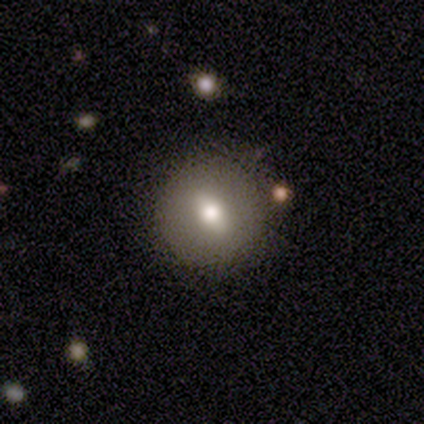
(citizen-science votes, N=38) A smooth galaxy with no disk features (71%) that is round (78%).

Vote fractions:
- Smooth or featured? smooth: 71% / featured or disk: 24% / star or artifact: 5%
- How rounded? round: 78% / in between: 22% / cigar-shaped: 0%
- Merging? none: 92% / minor disturbance: 6% / major disturbance: 3% / merger: 0%